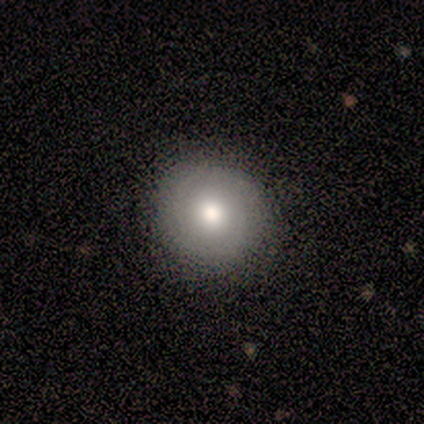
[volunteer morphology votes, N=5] Smooth or featured?
  - featured or disk: 60% *
  - smooth: 40%
  - star or artifact: 0%
Edge-on disk?
  - no: 100% *
  - yes: 0%
Bar?
  - strong: 33% * (tied)
  - weak: 33% * (tied)
  - no: 33% * (tied)
Spiral arms?
  - yes: 67% *
  - no: 33%
Spiral winding?
  - tight: 50% * (tied)
  - medium: 50% * (tied)
  - loose: 0%
Spiral arm count?
  - 2: 100% *
  - 1: 0%
  - 3: 0%
  - 4: 0%
  - more than 4: 0%
  - can't tell: 0%
Bulge size?
  - large: 67% *
  - moderate: 33%
  - dominant: 0%
  - small: 0%
  - none: 0%
Merging?
  - none: 80% *
  - minor disturbance: 20%
  - major disturbance: 0%
  - merger: 0%